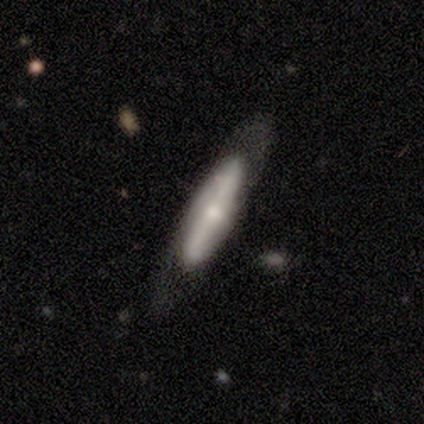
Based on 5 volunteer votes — Q: Smooth or featured?
A: featured or disk (60%); runner-up: smooth (40%)
Q: Edge-on disk?
A: no (67%); runner-up: yes (33%)
Q: Bar?
A: strong (50%); tied with: no (50%)
Q: Spiral arms?
A: yes (100%)
Q: Spiral winding?
A: tight (50%); tied with: loose (50%)
Q: Spiral arm count?
A: 2 (100%)
Q: Bulge size?
A: small (100%)
Q: Merging?
A: none (100%)